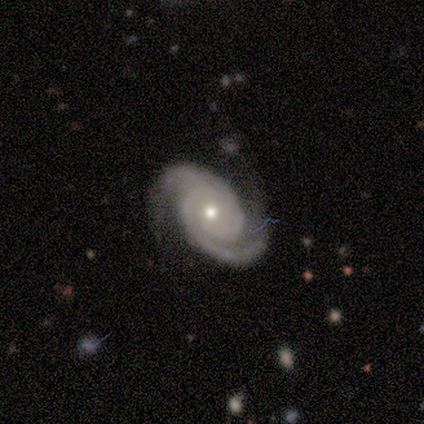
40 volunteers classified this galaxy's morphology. Volunteers were most divided on "bulge size": moderate: 55%, small: 39%, large: 3%, none: 3%, dominant: 0%. More confident: edge-on disk — no (100%); spiral arms — yes (97%); spiral arm count — 2 (91%); smooth or featured — featured or disk (82%); bar — no (82%); merging — none (71%); spiral winding — tight (59%).